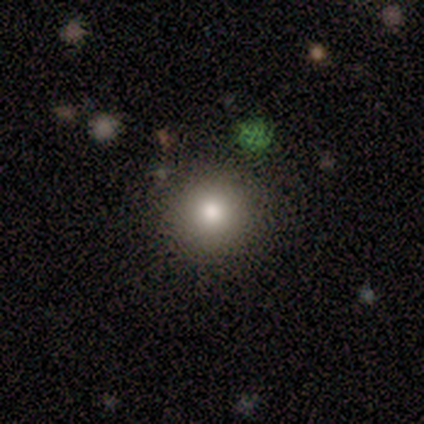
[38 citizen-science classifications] smooth 63%, featured or disk 26%, star or artifact 11%. Down the decision tree: how rounded — round (100%); merging — none (85%).